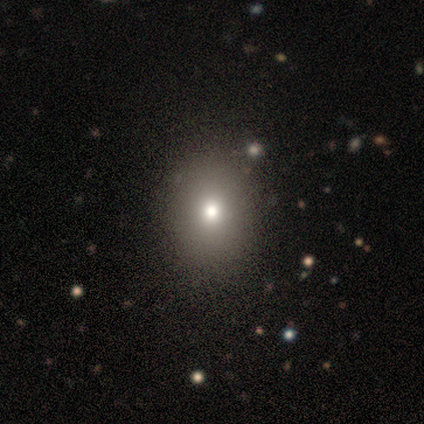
Smooth or featured?
  - smooth: 50% * (tied)
  - featured or disk: 50% * (tied)
  - star or artifact: 0%
How rounded?
  - in between: 100% *
  - round: 0%
  - cigar-shaped: 0%
Merging?
  - none: 50% * (tied)
  - minor disturbance: 50% * (tied)
  - major disturbance: 0%
  - merger: 0%